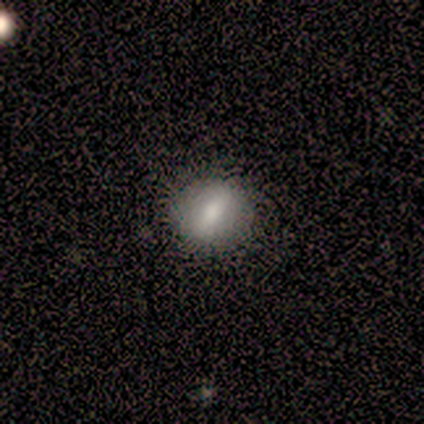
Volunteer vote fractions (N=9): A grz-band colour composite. It shows a smooth galaxy with no disk features (78%) that is round (86%). Merging: none (88%).